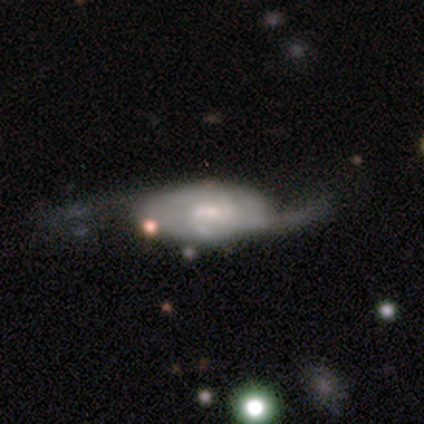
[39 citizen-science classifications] Smooth or featured? 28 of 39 (72%) said featured or disk. Edge-on disk? 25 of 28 (89%) said no. Bar? 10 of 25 (40%, tied with no) said weak. Spiral arms? 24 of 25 (96%) said yes. Spiral winding? 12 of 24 (50%) said loose. Spiral arm count? 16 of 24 (67%) said 2. Bulge size? 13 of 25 (52%) said small. Merging? 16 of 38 (42%) said major disturbance.